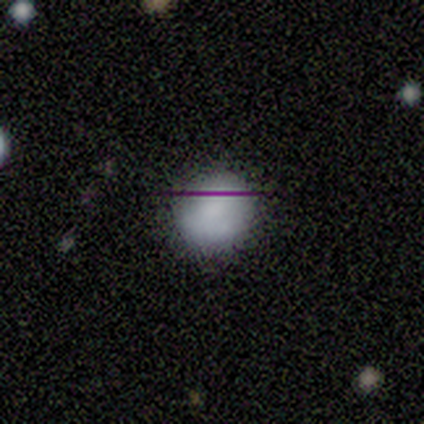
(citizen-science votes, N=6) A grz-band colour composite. It shows a smooth galaxy with no disk features (83%) that is round (80%). Merging: none (80%).